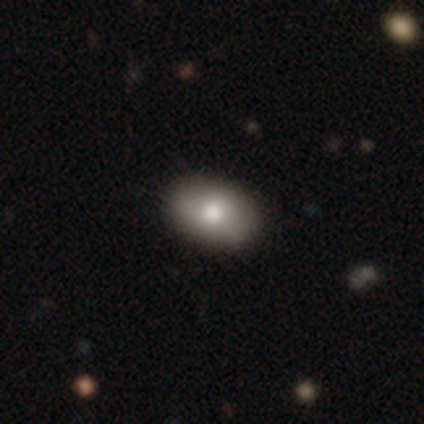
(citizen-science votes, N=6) smooth-or-featured: smooth: 67% | featured or disk: 33% | star or artifact: 0%
  how-rounded: in between: 100% | round: 0% | cigar-shaped: 0%
  merging: none: 100% | minor disturbance: 0% | major disturbance: 0% | merger: 0%